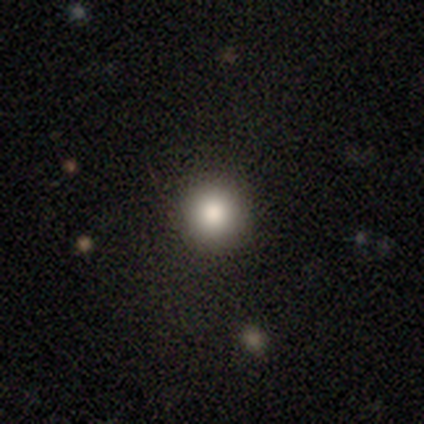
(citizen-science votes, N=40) Smooth or featured? 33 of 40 (82%) said smooth. How rounded? 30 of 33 (91%) said round. Merging? 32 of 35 (91%) said none.